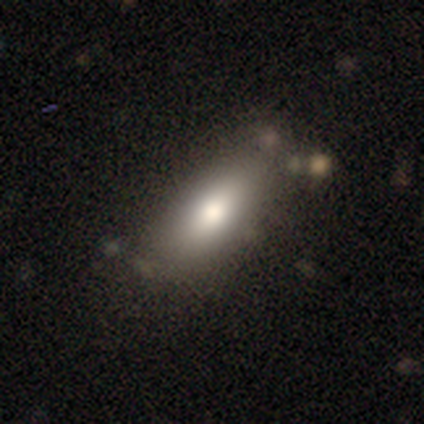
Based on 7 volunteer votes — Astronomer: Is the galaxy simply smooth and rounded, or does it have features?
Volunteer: smooth — 86%.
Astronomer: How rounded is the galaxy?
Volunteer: in between — 83%.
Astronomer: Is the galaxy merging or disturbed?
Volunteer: none — 57%.